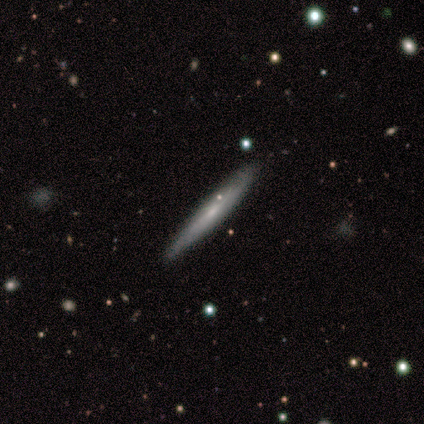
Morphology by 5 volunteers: Q: Smooth or featured?
A: smooth (80%); runner-up: featured or disk (20%)
Q: How rounded?
A: cigar-shaped (100%)
Q: Merging?
A: none (80%); runner-up: minor disturbance (20%)